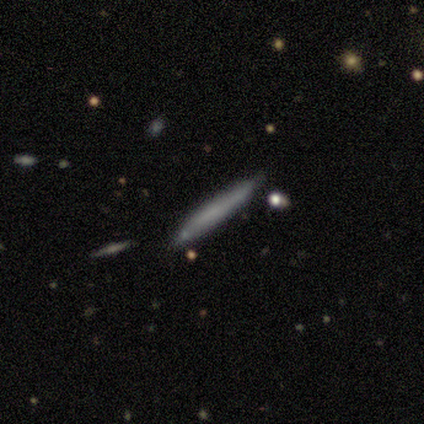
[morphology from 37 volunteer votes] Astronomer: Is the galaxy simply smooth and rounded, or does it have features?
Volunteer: smooth — 68%.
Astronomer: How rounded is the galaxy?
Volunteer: cigar-shaped — 96%.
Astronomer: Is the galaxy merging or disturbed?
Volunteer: none — 81%.